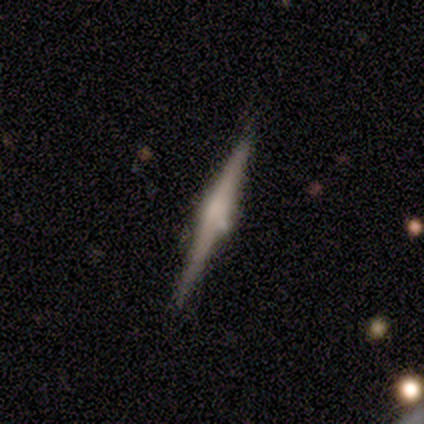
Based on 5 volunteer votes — Volunteers were most divided on "merging": none: 60%, minor disturbance: 20%, merger: 20%, major disturbance: 0%. More confident: smooth or featured — featured or disk (100%); edge-on disk — yes (100%); edge-on bulge — rounded (80%).